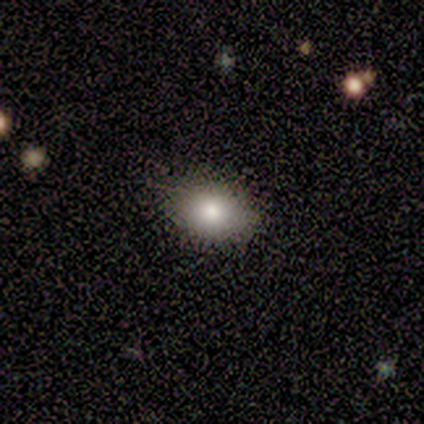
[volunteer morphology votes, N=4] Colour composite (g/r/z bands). It shows a smooth galaxy with no disk features (75%) that is in between round and cigar-shaped (67%). Merging: none (75%).